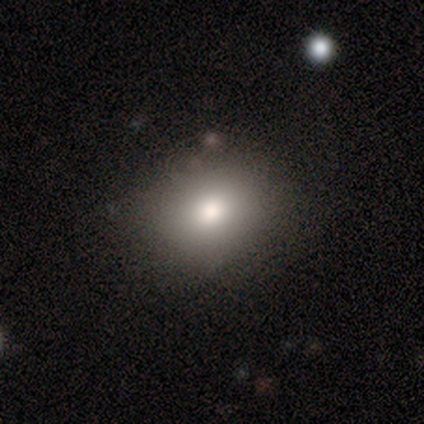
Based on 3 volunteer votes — smooth-or-featured: smooth: 100% | featured or disk: 0% | star or artifact: 0%
  how-rounded: round: 67% | in between: 33% | cigar-shaped: 0%
  merging: none: 100% | minor disturbance: 0% | major disturbance: 0% | merger: 0%